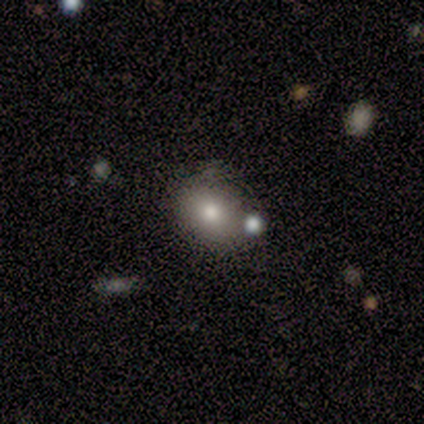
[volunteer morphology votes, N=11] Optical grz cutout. It shows a smooth galaxy with no disk features (91%) that is round (70%). Merging: none (73%).